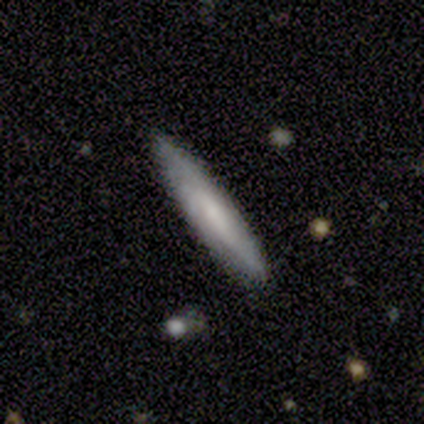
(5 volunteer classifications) Smooth or featured?
  - featured or disk: 60% *
  - smooth: 20%
  - star or artifact: 20%
Edge-on disk?
  - yes: 100% *
  - no: 0%
Edge-on bulge?
  - none: 100% *
  - boxy: 0%
  - rounded: 0%
Merging?
  - none: 100% *
  - minor disturbance: 0%
  - major disturbance: 0%
  - merger: 0%